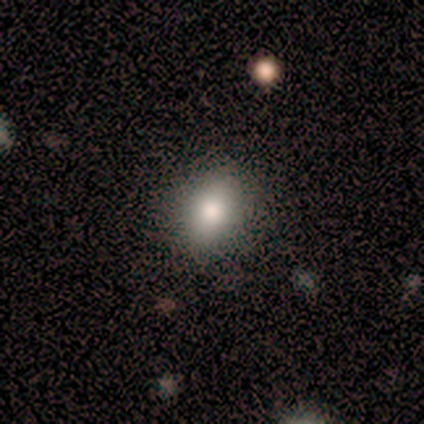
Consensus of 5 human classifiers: smooth-or-featured: smooth: 80% | featured or disk: 20% | star or artifact: 0%
  how-rounded: in between: 75% | round: 25% | cigar-shaped: 0%
  merging: none: 100% | minor disturbance: 0% | major disturbance: 0% | merger: 0%